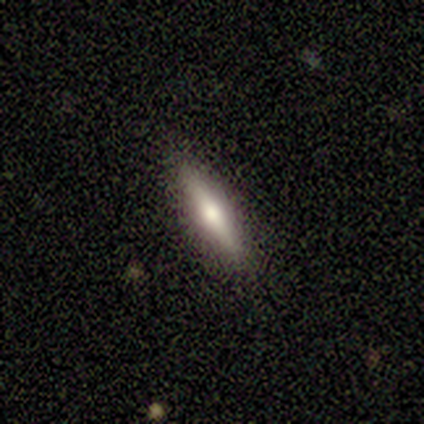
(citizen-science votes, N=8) Smooth or featured? smooth (50%, tied with featured or disk)
How rounded? cigar-shaped (75%)
Merging? none (88%)